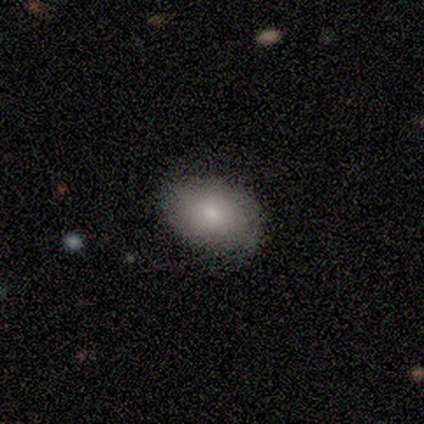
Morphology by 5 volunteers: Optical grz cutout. It shows a smooth galaxy with no disk features (40%, tied with featured or disk) that is round (50%, tied with in between). Merging: none (100%).